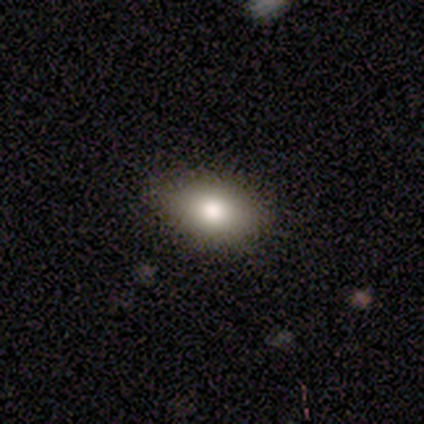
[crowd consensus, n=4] smooth 100%, featured or disk 0%, star or artifact 0%. Down the decision tree: how rounded — round (50%, tied with in between); merging — minor disturbance (75%).